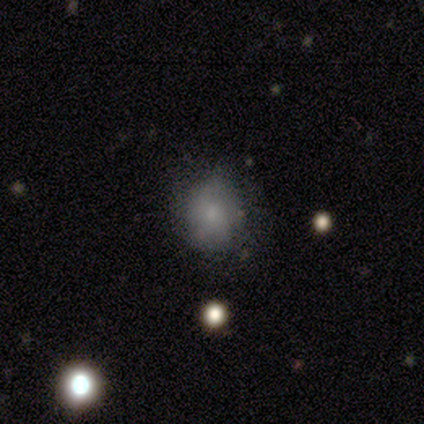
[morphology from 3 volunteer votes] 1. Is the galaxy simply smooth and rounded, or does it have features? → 67% featured or disk, 33% smooth, 0% star or artifact.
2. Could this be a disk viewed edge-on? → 100% no, 0% yes.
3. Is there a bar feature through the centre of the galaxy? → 100% no, 0% strong, 0% weak.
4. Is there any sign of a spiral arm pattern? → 100% no, 0% yes.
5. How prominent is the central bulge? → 100% small, 0% dominant, 0% large, 0% moderate, 0% none.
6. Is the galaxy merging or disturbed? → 67% none, 33% minor disturbance, 0% major disturbance, 0% merger.